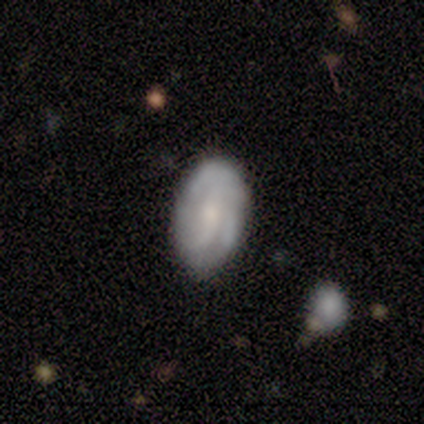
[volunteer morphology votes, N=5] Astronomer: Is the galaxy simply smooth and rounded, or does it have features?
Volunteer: featured or disk — 60% (runner-up: smooth, 40%).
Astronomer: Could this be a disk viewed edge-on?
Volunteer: no — 100%.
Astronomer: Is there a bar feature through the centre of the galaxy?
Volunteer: weak — 67%.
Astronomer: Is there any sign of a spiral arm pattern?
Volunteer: yes — 100%.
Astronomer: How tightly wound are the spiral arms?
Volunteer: tight — 67%.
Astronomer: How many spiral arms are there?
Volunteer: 2 — 67%.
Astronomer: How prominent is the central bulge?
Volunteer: small — 67%.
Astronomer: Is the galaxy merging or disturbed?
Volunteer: none — 60%.